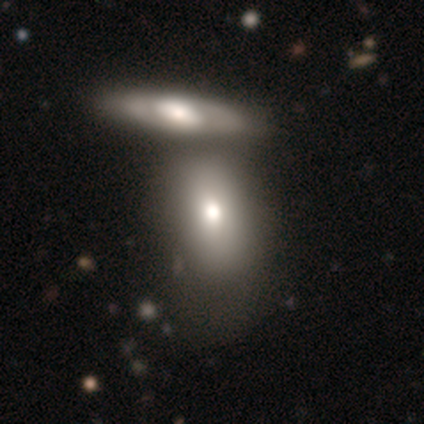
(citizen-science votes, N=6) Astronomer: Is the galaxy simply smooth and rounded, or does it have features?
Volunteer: smooth — 100%.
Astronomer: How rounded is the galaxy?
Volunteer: in between — 67%.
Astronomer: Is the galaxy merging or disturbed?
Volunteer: merger — 83%.